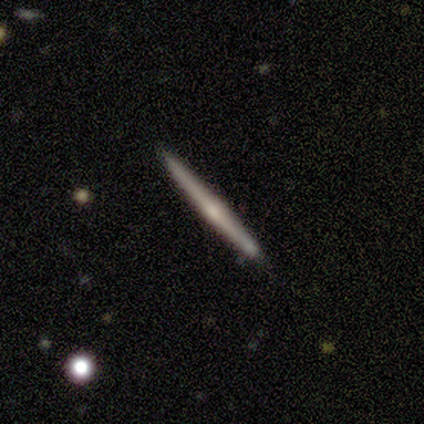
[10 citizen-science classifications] A featured or disk galaxy (70%) viewed edge-on (100%) with a rounded central bulge (71%). Merging: none (90%).